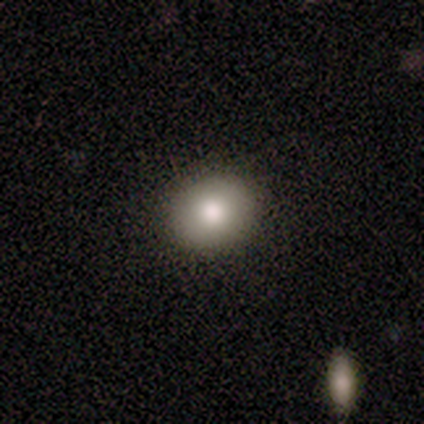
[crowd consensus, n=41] This is clearly a smooth galaxy (80%). How rounded: likely round (73%). Merging: clearly none (89%).